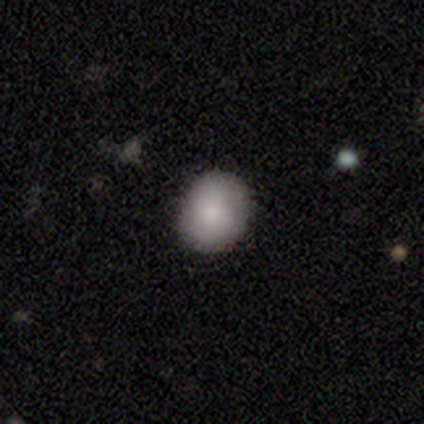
Smooth or featured? 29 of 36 (81%) said smooth. How rounded? 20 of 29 (69%) said round. Merging? 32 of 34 (94%) said none.